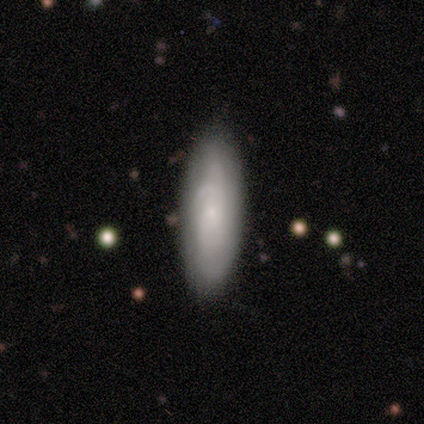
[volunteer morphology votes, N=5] A smooth galaxy with no disk features (40%, tied with featured or disk) that is in between round and cigar-shaped (50%, tied with cigar-shaped).

Vote fractions:
- Smooth or featured? smooth: 40% (tied) / featured or disk: 40% (tied) / star or artifact: 20%
- How rounded? in between: 50% (tied) / cigar-shaped: 50% (tied) / round: 0%
- Merging? none: 100% / minor disturbance: 0% / major disturbance: 0% / merger: 0%